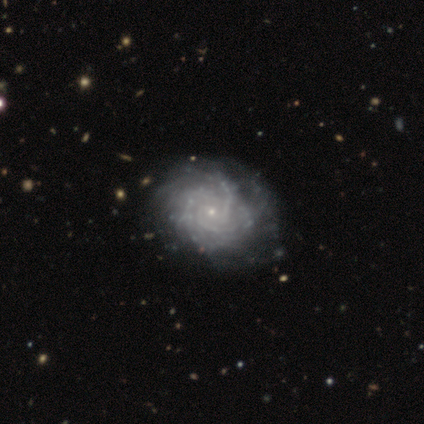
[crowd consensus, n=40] Volunteers were most divided on "spiral winding": tight: 62%, medium: 36%, loose: 3%. Remaining: smooth or featured — featured or disk (100%); edge-on disk — no (100%); spiral arms — yes (98%); bulge size — small (85%); bar — no (72%); merging — none (57%); spiral arm count — can't tell (49%).